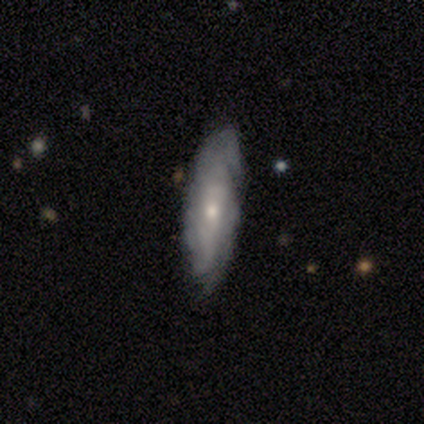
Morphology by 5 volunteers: smooth-or-featured: featured or disk: 60% | smooth: 20% | star or artifact: 20%
  disk-edge-on: no: 100% | yes: 0%
    bar: no: 67% | strong: 33% | weak: 0%
    has-spiral-arms: yes: 67% | no: 33%
      spiral-winding: tight: 100% | medium: 0% | loose: 0%
      spiral-arm-count: can't tell: 100% | 1: 0% | 2: 0% | 3: 0% | 4: 0% | more than 4: 0%
    bulge-size: moderate: 67% | small: 33% | dominant: 0% | large: 0% | none: 0%
  merging: none: 75% | minor disturbance: 25% | major disturbance: 0% | merger: 0%